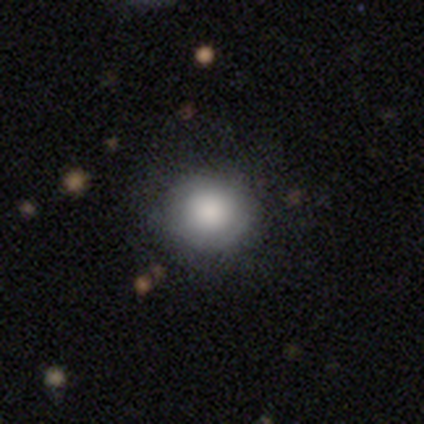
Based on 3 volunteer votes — Smooth or featured: smooth — 100%
How rounded: round — 67% (in between — 33%)
Merging: none — 67% (minor disturbance — 33%)